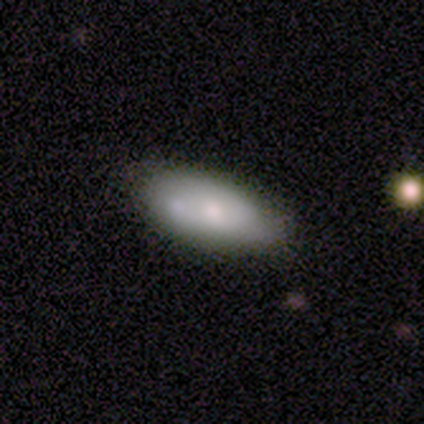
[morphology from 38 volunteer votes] smooth 55%, featured or disk 39%, star or artifact 5%. Down the decision tree: how rounded — in between (90%); merging — none (58%).